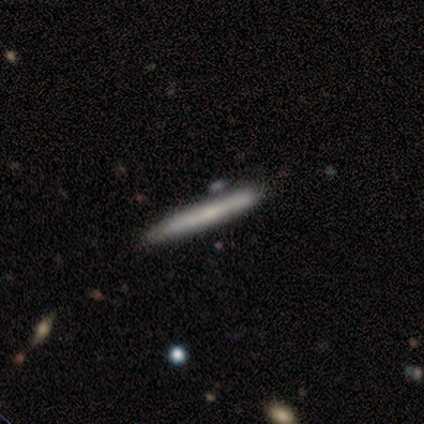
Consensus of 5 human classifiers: Overall: smooth (60%; featured or disk 40%). How rounded: cigar-shaped (100%). Merging: none (80%).